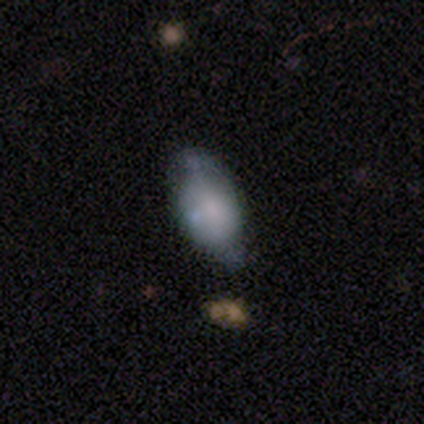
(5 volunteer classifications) A smooth galaxy with no disk features (80%) that is in between round and cigar-shaped (75%). Merging: none (80%).